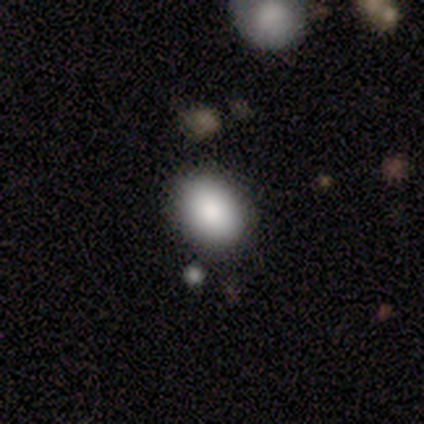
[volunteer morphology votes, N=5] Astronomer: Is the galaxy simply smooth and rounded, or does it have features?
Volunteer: smooth — 100%.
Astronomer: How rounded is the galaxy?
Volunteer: in between — 80%.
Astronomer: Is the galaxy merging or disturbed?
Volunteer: none — 80%.